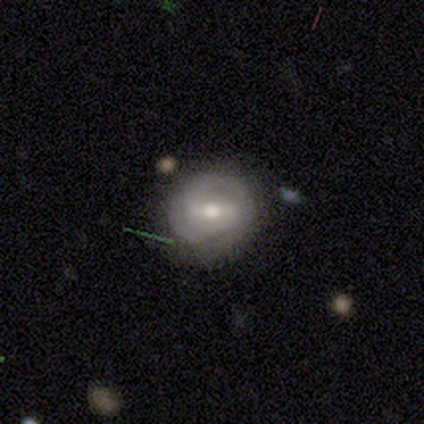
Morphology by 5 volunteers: Volunteers were most divided on "spiral winding" (2-way tie): tight: 40%, medium: 40%, loose: 20%. More confident: smooth or featured — featured or disk (100%); edge-on disk — no (100%); spiral arms — yes (100%); spiral arm count — 2 (80%); bar — no (60%); bulge size — moderate (60%); merging — none (60%).